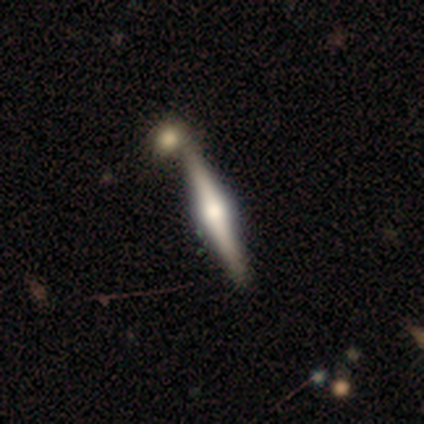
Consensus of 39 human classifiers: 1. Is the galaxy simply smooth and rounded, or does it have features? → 82% featured or disk, 18% smooth, 0% star or artifact.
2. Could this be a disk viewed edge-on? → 97% yes, 3% no.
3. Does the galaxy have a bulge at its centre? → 90% rounded, 6% boxy, 3% none.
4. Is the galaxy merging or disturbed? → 64% none, 10% merger, 3% minor disturbance, 0% major disturbance.